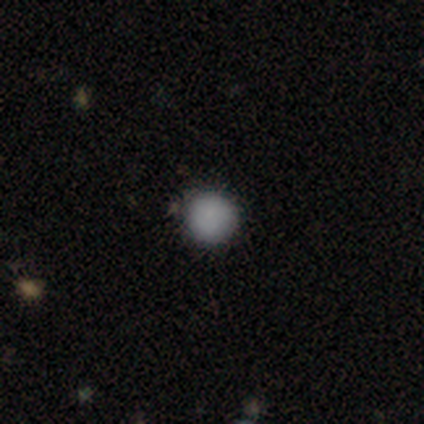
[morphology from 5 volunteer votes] Q: Smooth or featured?
A: smooth (100%)
Q: How rounded?
A: round (80%); runner-up: in between (20%)
Q: Merging?
A: none (80%); runner-up: merger (20%)